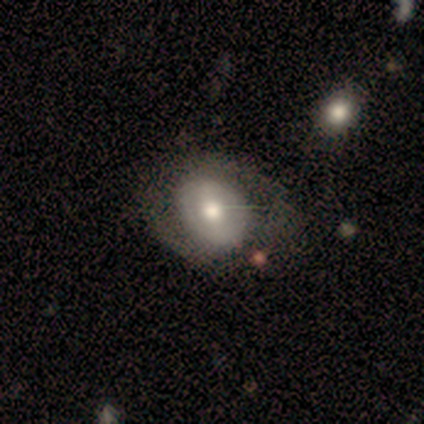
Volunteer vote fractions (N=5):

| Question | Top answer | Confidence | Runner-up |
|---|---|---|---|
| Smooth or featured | featured or disk | 60% | smooth (20%) |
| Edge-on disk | no | 100% | — |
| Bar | no | 67% | weak (33%) |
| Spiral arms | no | 67% | yes (33%) |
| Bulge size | moderate | 100% | — |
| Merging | none | 100% | — |